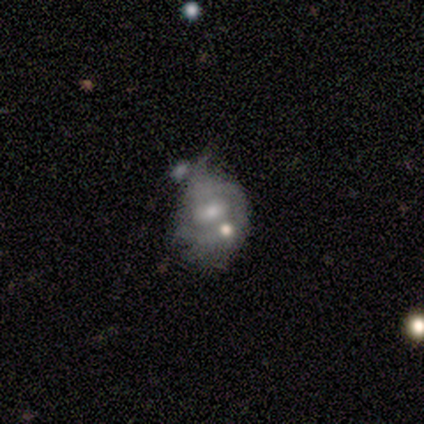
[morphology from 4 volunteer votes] Smooth or featured? 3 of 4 (75%) said featured or disk. Edge-on disk? 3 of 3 (100%) said no. Bar? 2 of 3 (67%) said no. Spiral arms? 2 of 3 (67%) said yes. Spiral winding? 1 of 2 (50%, tied with medium) said tight. Spiral arm count? 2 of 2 (100%) said 1. Bulge size? 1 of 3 (33%, tied with small and none) said moderate. Merging? 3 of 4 (75%) said major disturbance.